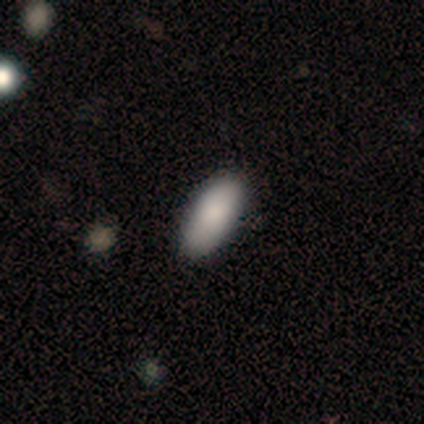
smooth-or-featured: smooth: 92% | featured or disk: 5% | star or artifact: 3%
  how-rounded: in between: 97% | cigar-shaped: 3% | round: 0%
  merging: none: 84% | minor disturbance: 13% | merger: 3% | major disturbance: 0%